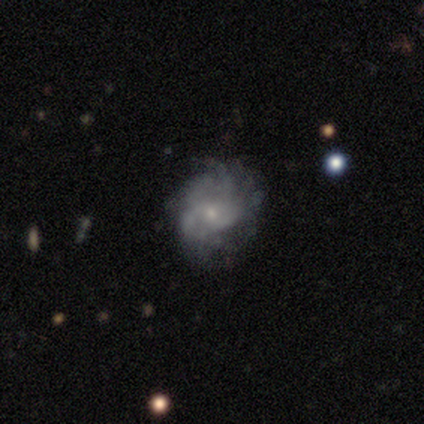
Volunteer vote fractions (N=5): Smooth or featured: featured or disk — 80% (smooth — 20%)
Edge-on disk: no — 100%
Bar: no — 75% (weak — 25%)
Spiral arms: yes — 100%
Spiral winding: tight — 75% (medium — 25%)
Spiral arm count: can't tell — 50% (2 — 25%)
Bulge size: small — 100%
Merging: none — 80% (minor disturbance — 20%)